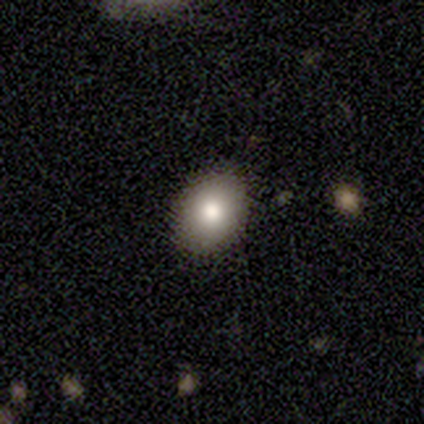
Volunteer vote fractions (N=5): A smooth galaxy with no disk features (100%) that is in between round and cigar-shaped (80%). Merging: none (100%).